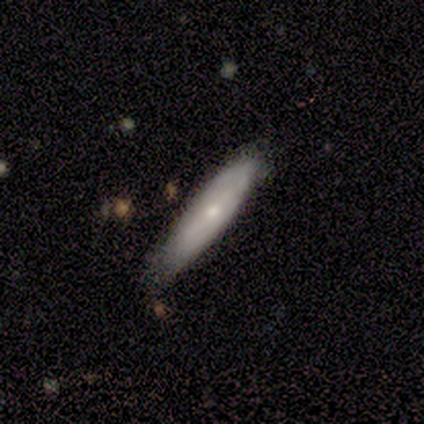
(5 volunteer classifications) smooth 80%, star or artifact 20%, featured or disk 0%. Down the decision tree: how rounded — cigar-shaped (75%); merging — none (50%).